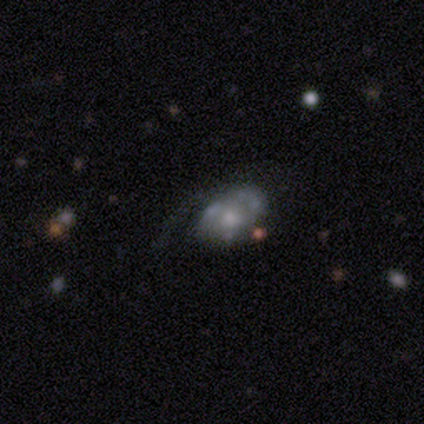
This appears to be a featured or disk galaxy (100%) with no bar (60%), 1 (100%) loose (67%) spiral arms (60%) and a small central bulge (60%). Merging: minor disturbance (40%, tied with major disturbance).